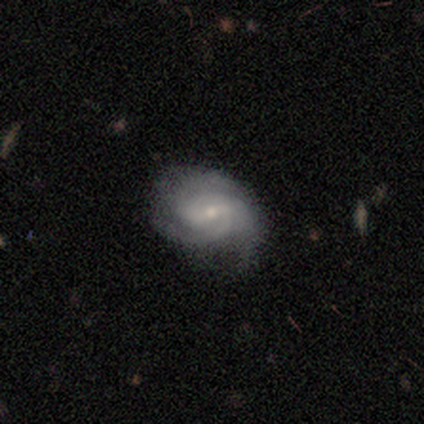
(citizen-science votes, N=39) featured or disk 85%, smooth 10%, star or artifact 5%. Down the decision tree: edge-on disk — no (97%); bar — weak (59%); spiral arms — yes (100%); spiral arm count — 3 (44%); spiral winding — medium (62%); bulge size — small (75%); merging — none (62%).